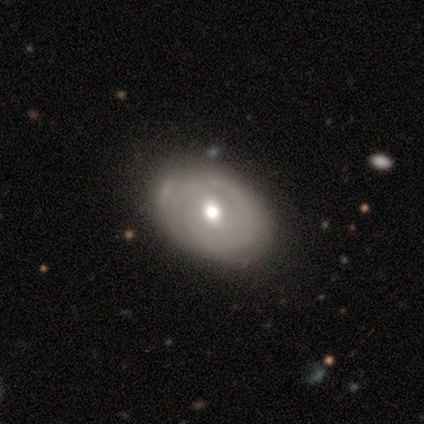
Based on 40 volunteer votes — A featured or disk galaxy (75%) with no bar (52%), 1 (50%) tight (69%) spiral arms (55%) and a moderate central bulge (79%).

Vote fractions:
- Smooth or featured? featured or disk: 75% / smooth: 22% / star or artifact: 2%
- Edge-on disk? no: 97% / yes: 3%
- Bar? no: 52% / weak: 48% / strong: 0%
- Spiral arms? yes: 55% / no: 45%
- Spiral winding? tight: 69% / medium: 19% / loose: 12%
- Spiral arm count? 1: 50% / 2: 25% / can't tell: 19% / 4: 6% / 3: 0% / more than 4: 0%
- Bulge size? moderate: 79% / large: 21% / dominant: 0% / small: 0% / none: 0%
- Merging? none: 46% / minor disturbance: 15% / major disturbance: 5% / merger: 3%